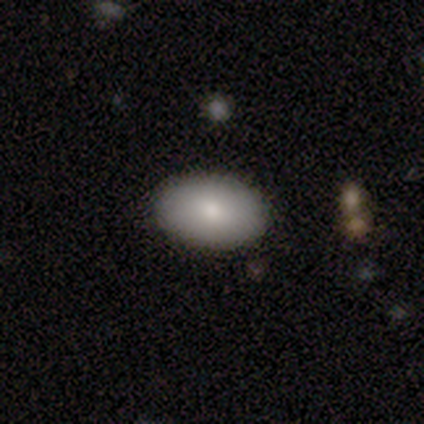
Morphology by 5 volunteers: A smooth galaxy with no disk features (80%) that is in between round and cigar-shaped (100%). Merging: none (100%).